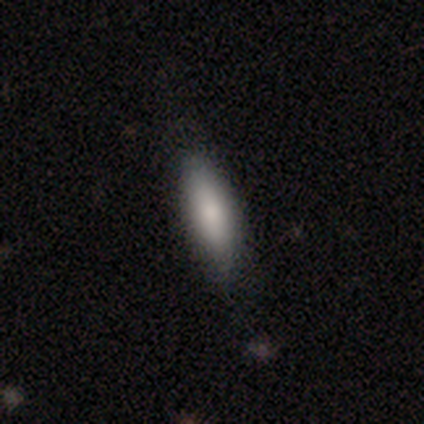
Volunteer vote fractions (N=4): Q: Smooth or featured?
A: smooth (50%); tied with: featured or disk (50%)
Q: How rounded?
A: in between (50%); tied with: cigar-shaped (50%)
Q: Merging?
A: none (50%); tied with: minor disturbance (50%)